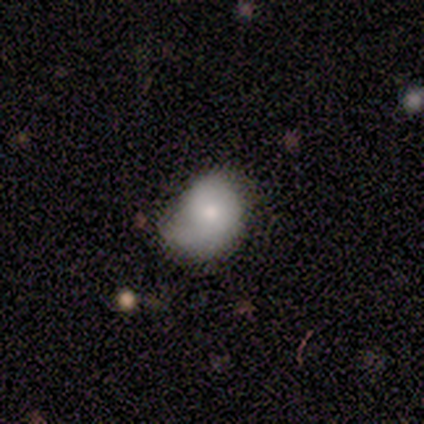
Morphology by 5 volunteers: This appears to be a smooth galaxy with no disk features (60%) that is in between round and cigar-shaped (100%). Merging: none (60%).